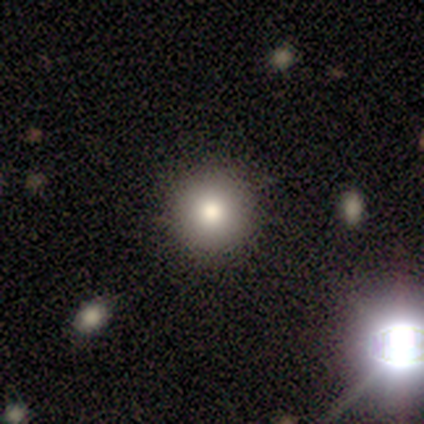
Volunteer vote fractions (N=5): A smooth galaxy with no disk features (80%) that is round (75%). Merging: none (60%).